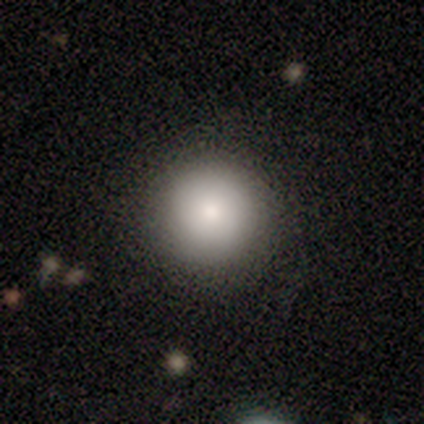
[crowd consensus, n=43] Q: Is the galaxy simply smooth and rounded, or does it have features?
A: smooth — 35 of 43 (81%).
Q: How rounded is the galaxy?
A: round — 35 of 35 (100%).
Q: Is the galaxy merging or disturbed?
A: none — 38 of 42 (90%).